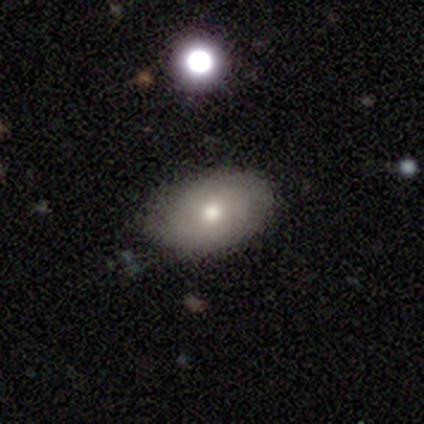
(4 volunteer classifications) A smooth galaxy with no disk features (50%, tied with featured or disk) that is in between round and cigar-shaped (100%). Merging: none (50%, tied with minor disturbance).